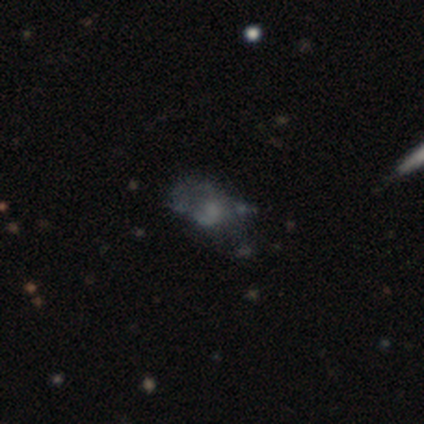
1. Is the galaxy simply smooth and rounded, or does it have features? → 100% featured or disk, 0% smooth, 0% star or artifact.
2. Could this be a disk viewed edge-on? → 100% no, 0% yes.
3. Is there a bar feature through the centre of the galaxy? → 100% no, 0% strong, 0% weak.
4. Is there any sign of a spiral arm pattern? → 100% no, 0% yes.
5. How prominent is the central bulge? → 40% moderate, 20% large, 20% small, 20% none, 0% dominant.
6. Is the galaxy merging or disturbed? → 40% none (tied), 40% major disturbance (tied), 20% minor disturbance, 0% merger.